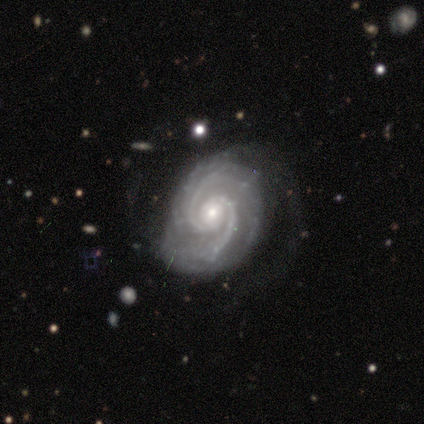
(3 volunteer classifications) smooth_or_featured: featured or disk (p=1.00)
disk_edge_on: no (p=1.00)
bar: weak (p=0.67) [alt: strong p=0.33]
has_spiral_arms: yes (p=1.00)
spiral_winding: tight (p=0.67) [alt: medium p=0.33]
spiral_arm_count: 2 (p=0.67) [alt: can't tell p=0.33]
bulge_size: small (p=0.67) [alt: moderate p=0.33]
merging: none (p=0.67) [alt: minor disturbance p=0.33]